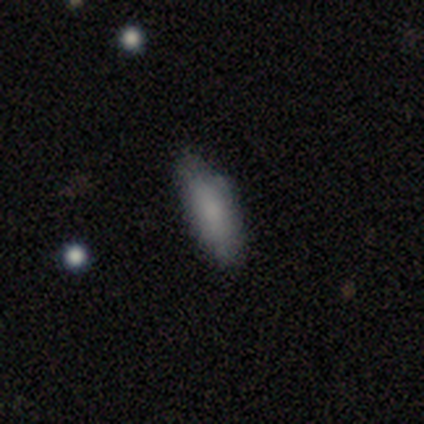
smooth-or-featured: smooth: 75% | featured or disk: 25% | star or artifact: 0%
  how-rounded: in between: 100% | round: 0% | cigar-shaped: 0%
  merging: minor disturbance: 75% | none: 25% | major disturbance: 0% | merger: 0%